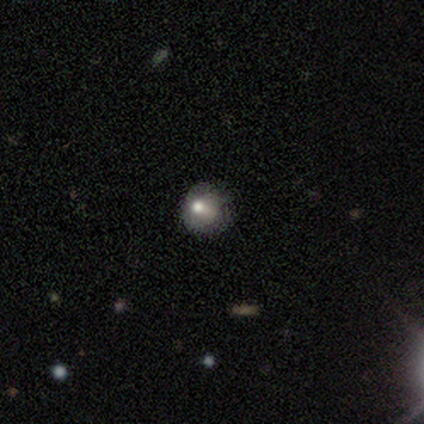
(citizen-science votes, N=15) Overall: smooth (73%). How rounded: round (82%). Merging: none (62%; minor disturbance 23%).